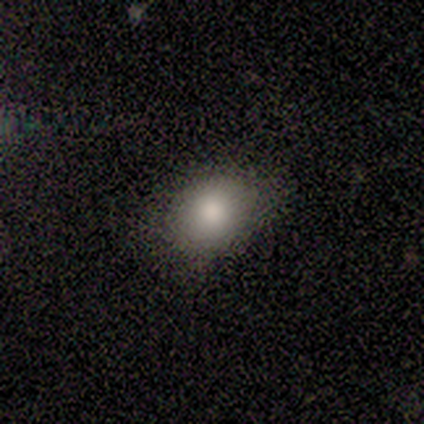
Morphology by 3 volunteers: Smooth or featured: smooth — 100%
How rounded: in between — 67% (round — 33%)
Merging: none — 100%